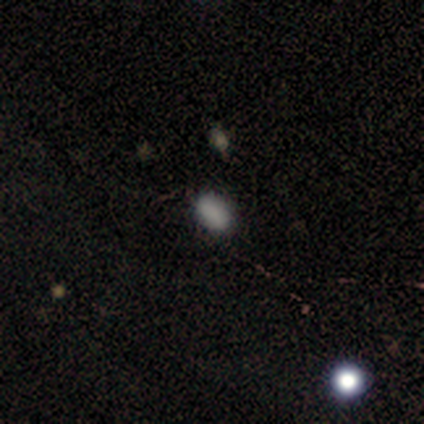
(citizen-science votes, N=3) Smooth or featured: smooth — 100%
How rounded: in between — 100%
Merging: none — 100%